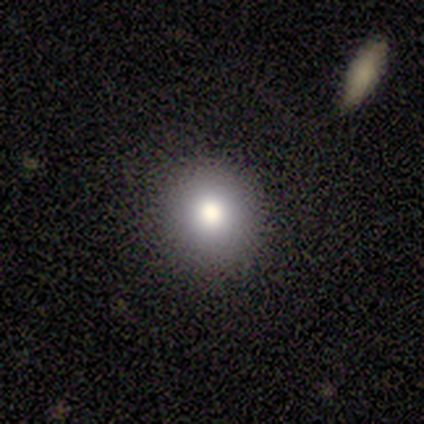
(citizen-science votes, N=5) Morphology: type=smooth (80%); roundness=round (100%); merging=none (80%).